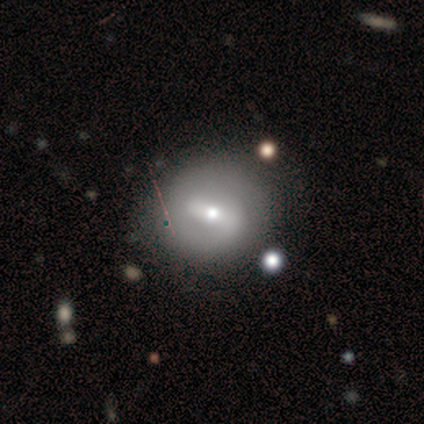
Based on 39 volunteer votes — Smooth or featured?
  - featured or disk: 54% *
  - smooth: 33%
  - star or artifact: 13%
Edge-on disk?
  - no: 86% *
  - yes: 14%
Bar?
  - strong: 50% *
  - weak: 44%
  - no: 6%
Spiral arms?
  - yes: 67% *
  - no: 33%
Spiral winding?
  - loose: 42% *
  - medium: 33%
  - tight: 25%
Spiral arm count?
  - 2: 58% *
  - can't tell: 25%
  - 1: 8%
  - 3: 8%
  - 4: 0%
  - more than 4: 0%
Bulge size?
  - moderate: 50% *
  - small: 44%
  - large: 6%
  - dominant: 0%
  - none: 0%
Merging?
  - none: 74% *
  - minor disturbance: 24%
  - major disturbance: 3%
  - merger: 0%